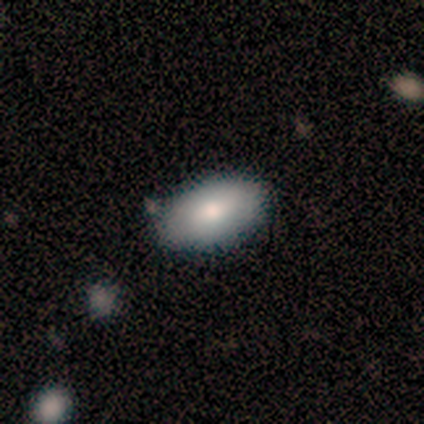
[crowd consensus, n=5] This is likely a smooth galaxy (60%). How rounded: clearly in between (100%). Merging: clearly none (100%).